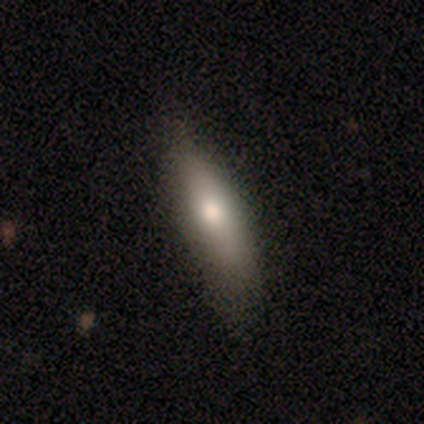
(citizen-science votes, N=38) smooth 76%, featured or disk 16%, star or artifact 8%. Down the decision tree: how rounded — cigar-shaped (59%); merging — none (71%).